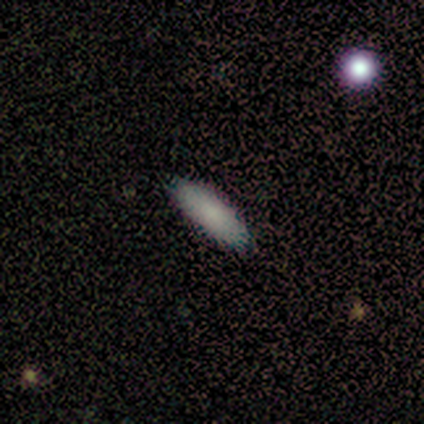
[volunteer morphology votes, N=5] A smooth galaxy with no disk features (60%) that is cigar-shaped (67%).

Vote fractions:
- Smooth or featured? smooth: 60% / featured or disk: 20% / star or artifact: 20%
- How rounded? cigar-shaped: 67% / in between: 33% / round: 0%
- Merging? none: 100% / minor disturbance: 0% / major disturbance: 0% / merger: 0%